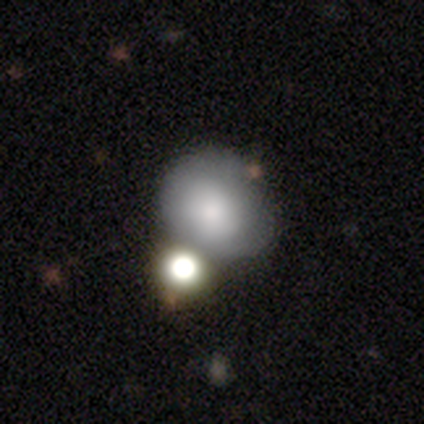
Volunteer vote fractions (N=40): Smooth or featured? smooth (75%)
How rounded? round (70%)
Merging? merger (40%)